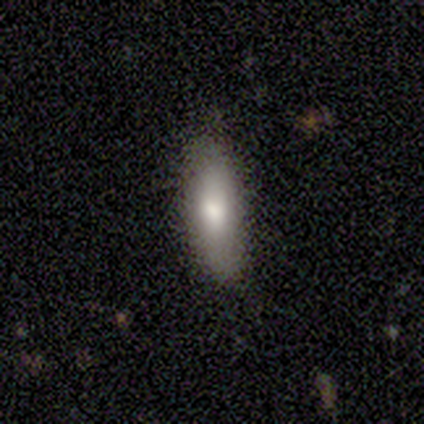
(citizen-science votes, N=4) smooth_or_featured: smooth (p=0.75) [alt: featured or disk p=0.25]
how_rounded: cigar-shaped (p=0.67) [alt: in between p=0.33]
merging: none (p=0.75) [alt: minor disturbance p=0.25]